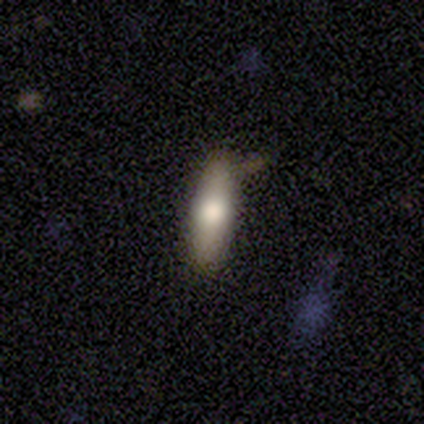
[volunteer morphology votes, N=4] Smooth or featured? 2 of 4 (50%, tied with featured or disk) said smooth. How rounded? 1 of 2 (50%, tied with cigar-shaped) said in between. Merging? 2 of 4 (50%, tied with minor disturbance) said none.